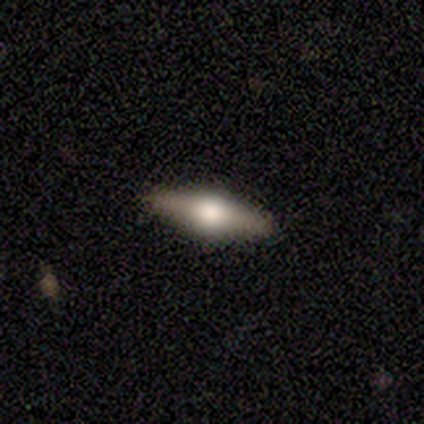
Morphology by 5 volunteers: Overall: featured or disk (60%; smooth 40%). Edge-on disk: yes (100%). Edge-on bulge: rounded (100%). Merging: none (80%).